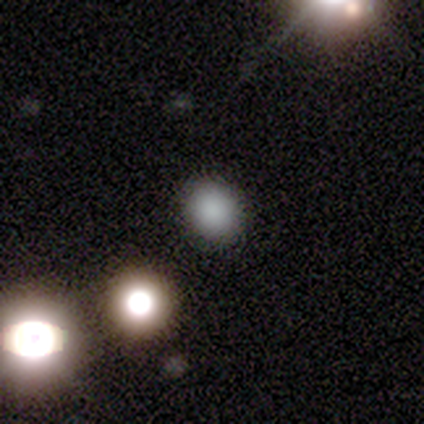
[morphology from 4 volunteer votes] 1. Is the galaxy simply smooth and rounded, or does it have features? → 75% smooth, 25% featured or disk, 0% star or artifact.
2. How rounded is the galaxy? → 67% round, 33% in between, 0% cigar-shaped.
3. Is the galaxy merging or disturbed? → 100% none, 0% minor disturbance, 0% major disturbance, 0% merger.